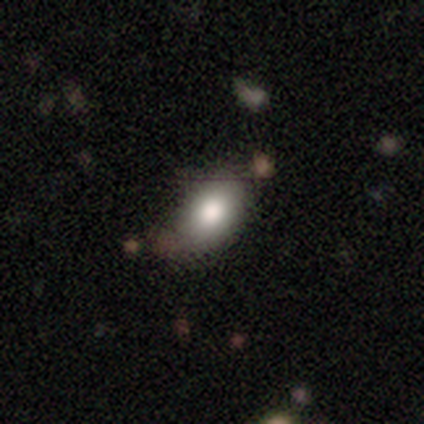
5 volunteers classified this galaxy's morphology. Smooth or featured? 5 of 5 (100%) said smooth. How rounded? 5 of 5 (100%) said in between. Merging? 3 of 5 (60%) said none.